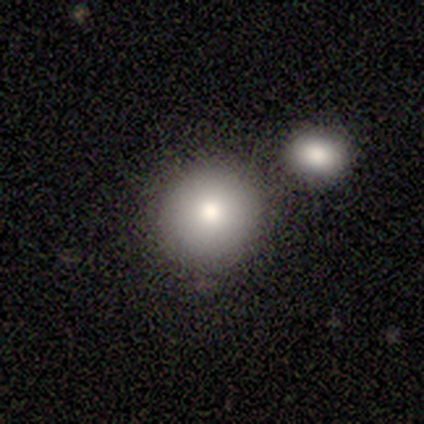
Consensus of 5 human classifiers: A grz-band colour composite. It shows a smooth galaxy with no disk features (100%) that is round (100%). Merging: none (60%).